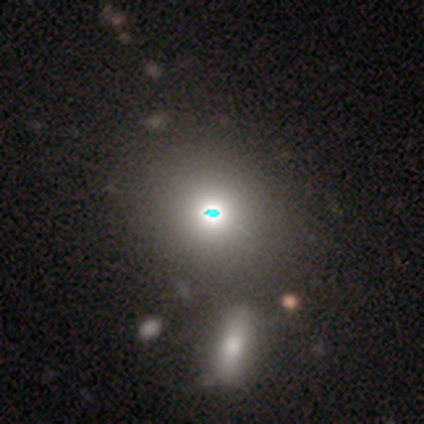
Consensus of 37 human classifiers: Morphology: type=smooth (59%); roundness=round (68%); merging=none (52%).